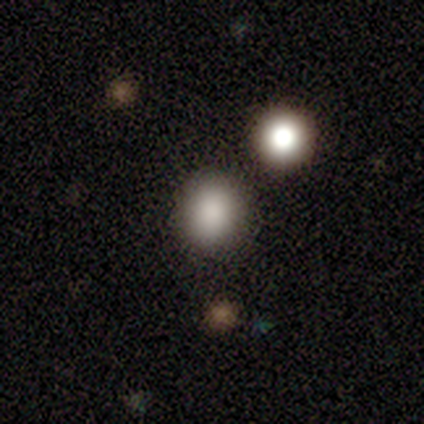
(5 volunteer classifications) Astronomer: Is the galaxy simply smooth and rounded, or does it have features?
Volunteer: smooth — 80%.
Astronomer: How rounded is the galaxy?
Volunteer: round — 75%.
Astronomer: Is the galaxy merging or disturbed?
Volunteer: none — 75%.